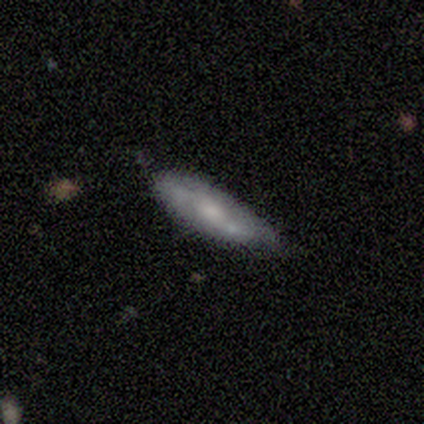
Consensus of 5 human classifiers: Smooth or featured? 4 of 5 (80%) said smooth. How rounded? 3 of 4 (75%) said cigar-shaped. Merging? 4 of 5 (80%) said none.